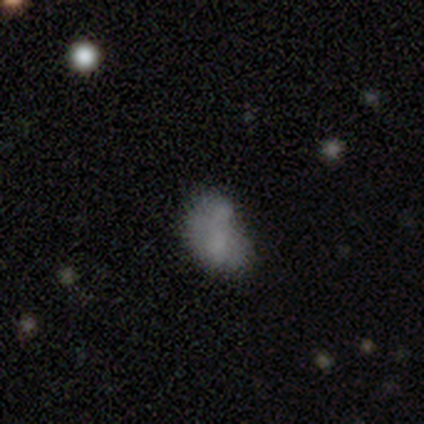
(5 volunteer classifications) Smooth or featured: smooth — 60% (featured or disk — 20%)
How rounded: in between — 100%
Merging: merger — 50% (none — 25%)